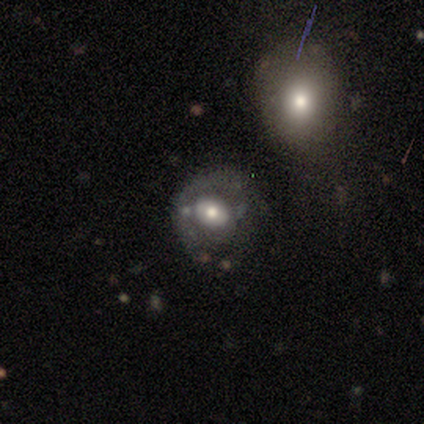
star or artifact 50%, smooth 25%, featured or disk 25%.